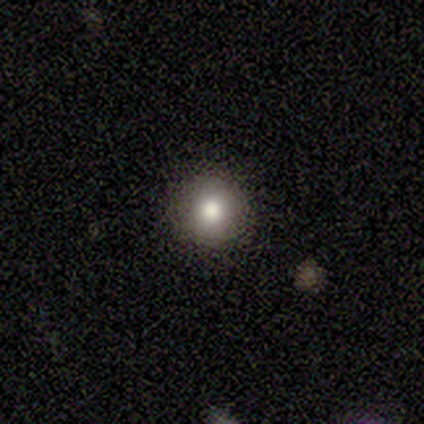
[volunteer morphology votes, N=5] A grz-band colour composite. It shows a smooth galaxy with no disk features (80%) that is round (100%). Merging: none (75%).